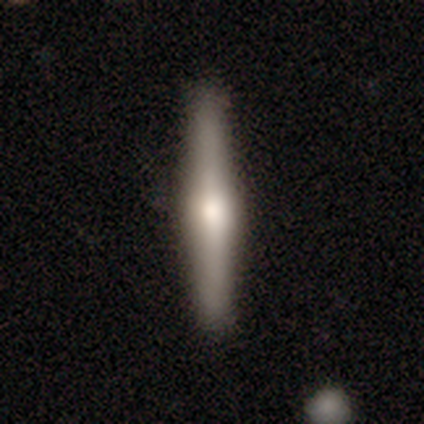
Smooth or featured?
  - featured or disk: 71% *
  - smooth: 29%
  - star or artifact: 0%
Edge-on disk?
  - yes: 100% *
  - no: 0%
Edge-on bulge?
  - rounded: 100% *
  - boxy: 0%
  - none: 0%
Merging?
  - none: 100% *
  - minor disturbance: 0%
  - major disturbance: 0%
  - merger: 0%